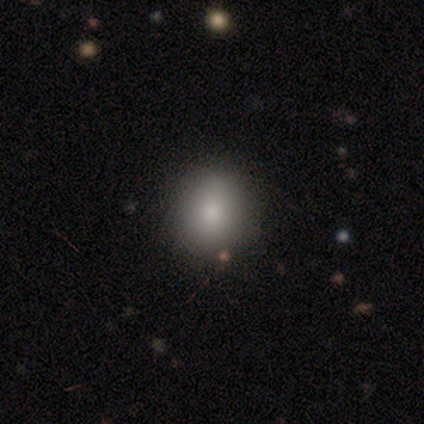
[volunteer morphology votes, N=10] Smooth or featured: smooth — 80% (featured or disk — 20%)
How rounded: round — 50% (tied with in between — 50%)
Merging: none — 80% (minor disturbance — 20%)